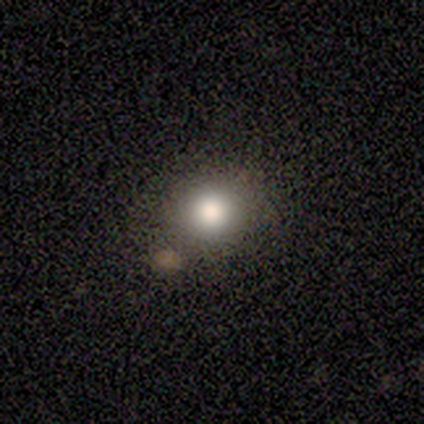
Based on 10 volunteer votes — A smooth galaxy with no disk features (80%) that is round (100%).

Vote fractions:
- Smooth or featured? smooth: 80% / star or artifact: 20% / featured or disk: 0%
- How rounded? round: 100% / in between: 0% / cigar-shaped: 0%
- Merging? none: 100% / minor disturbance: 0% / major disturbance: 0% / merger: 0%